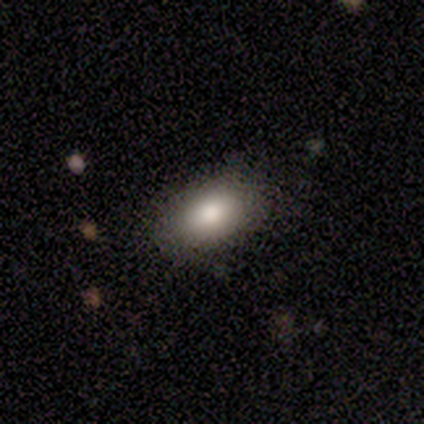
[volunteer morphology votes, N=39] A smooth galaxy with no disk features (82%) that is in between round and cigar-shaped (94%).

Vote fractions:
- Smooth or featured? smooth: 82% / star or artifact: 10% / featured or disk: 8%
- How rounded? in between: 94% / round: 6% / cigar-shaped: 0%
- Merging? none: 89% / minor disturbance: 11% / major disturbance: 0% / merger: 0%